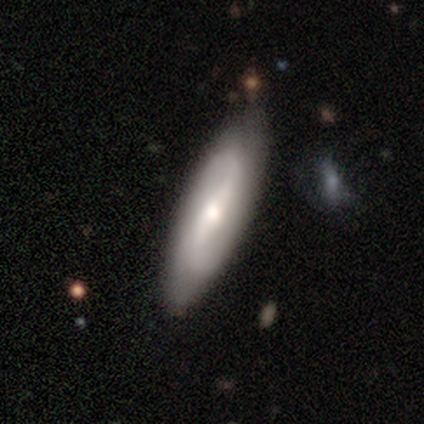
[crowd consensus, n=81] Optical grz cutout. It shows a featured or disk galaxy (65%) with a strong bar (45%), 2 (85%) loose (62%) spiral arms (83%) and a moderate central bulge (60%). Merging: none (55%).